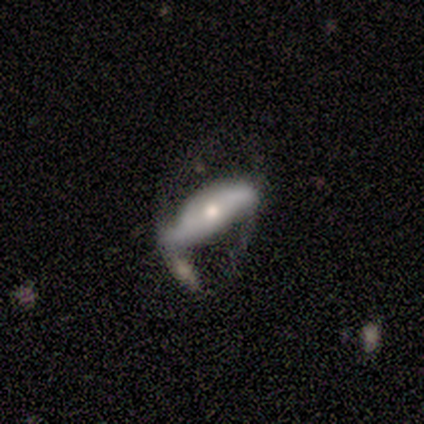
Smooth or featured?
  - featured or disk: 75% *
  - smooth: 25%
  - star or artifact: 0%
Edge-on disk?
  - no: 100% *
  - yes: 0%
Bar?
  - no: 67% *
  - weak: 33%
  - strong: 0%
Spiral arms?
  - yes: 100% *
  - no: 0%
Spiral winding?
  - medium: 67% *
  - loose: 33%
  - tight: 0%
Spiral arm count?
  - 1: 33% * (tied)
  - 2: 33% * (tied)
  - can't tell: 33% * (tied)
  - 3: 0%
  - 4: 0%
  - more than 4: 0%
Bulge size?
  - moderate: 67% *
  - small: 33%
  - dominant: 0%
  - large: 0%
  - none: 0%
Merging?
  - none: 50% *
  - minor disturbance: 25%
  - major disturbance: 25%
  - merger: 0%